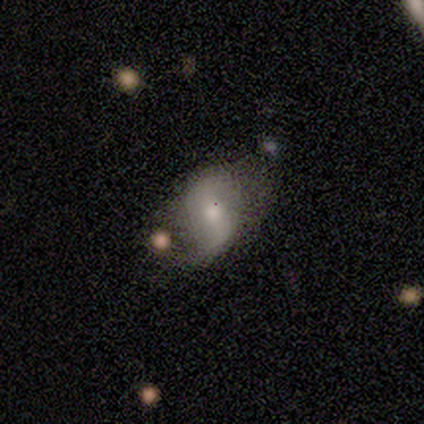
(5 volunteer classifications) Overall: featured or disk (100%). Edge-on disk: no (100%). Bar: weak (60%; strong 20%). Spiral arms: yes (100%). Spiral arm count: 2 (100%). Spiral winding: loose (80%). Bulge size: moderate (60%; small 20%). Merging: minor disturbance (60%; none 20%).